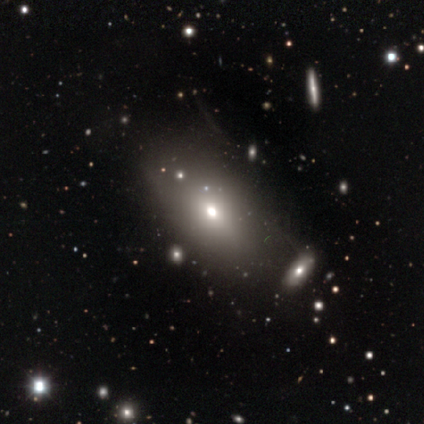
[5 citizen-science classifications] smooth-or-featured: smooth: 60% | featured or disk: 20% | star or artifact: 20%
  how-rounded: in between: 67% | round: 33% | cigar-shaped: 0%
  merging: none: 75% | minor disturbance: 25% | major disturbance: 0% | merger: 0%